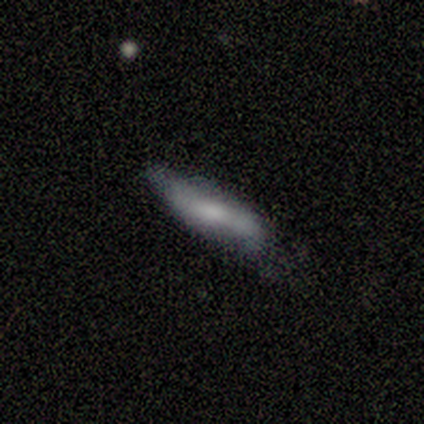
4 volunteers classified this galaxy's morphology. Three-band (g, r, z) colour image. It shows a smooth galaxy with no disk features (75%) that is cigar-shaped (100%). Merging: none (100%).